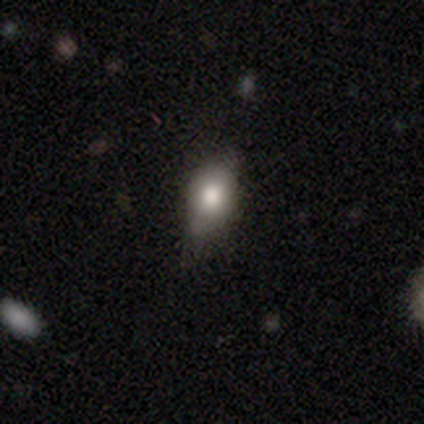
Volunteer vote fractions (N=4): Morphology: type=smooth (75%); roundness=in between (100%); merging=none (75%).